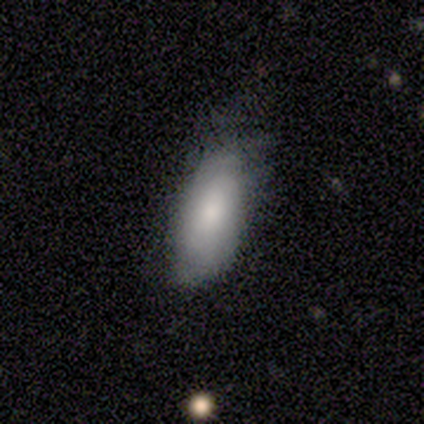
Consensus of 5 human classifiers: featured or disk 60%, smooth 20%, star or artifact 20%. Down the decision tree: edge-on disk — no (100%); bar — no (67%); spiral arms — yes (67%); spiral arm count — 2 (100%); spiral winding — tight (50%, tied with medium); bulge size — moderate (67%); merging — major disturbance (75%).